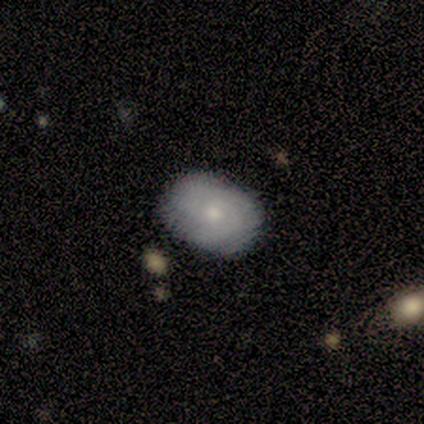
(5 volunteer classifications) Morphology: type=smooth (80%); roundness=in between (75%); merging=none (100%).